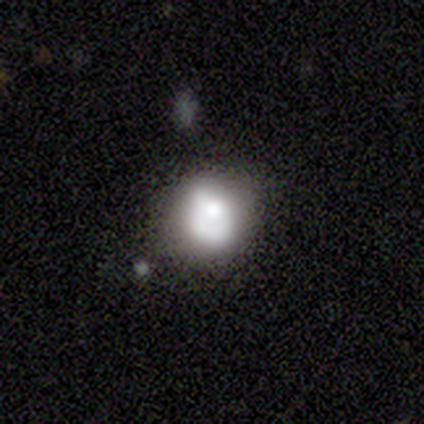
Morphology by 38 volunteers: A smooth galaxy with no disk features (63%) that is round (67%). Merging: none (44%).